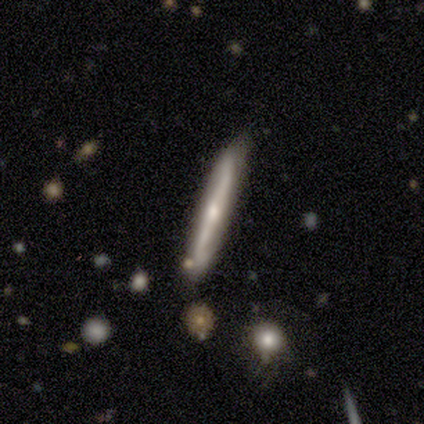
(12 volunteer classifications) smooth-or-featured: featured or disk: 50% | smooth: 42% | star or artifact: 8%
  disk-edge-on: yes: 100% | no: 0%
    edge-on-bulge: rounded: 83% | none: 17% | boxy: 0%
  merging: none: 73% | minor disturbance: 27% | major disturbance: 0% | merger: 0%